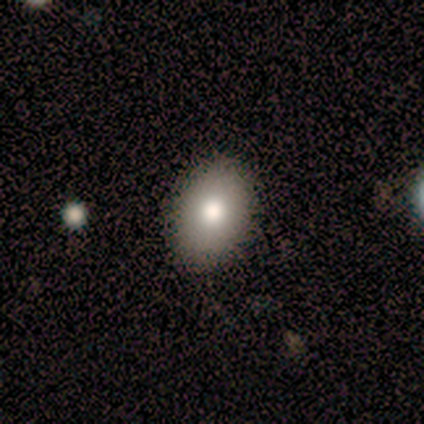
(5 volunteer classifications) smooth-or-featured: smooth: 80% | star or artifact: 20% | featured or disk: 0%
  how-rounded: in between: 100% | round: 0% | cigar-shaped: 0%
  merging: none: 75% | major disturbance: 25% | minor disturbance: 0% | merger: 0%